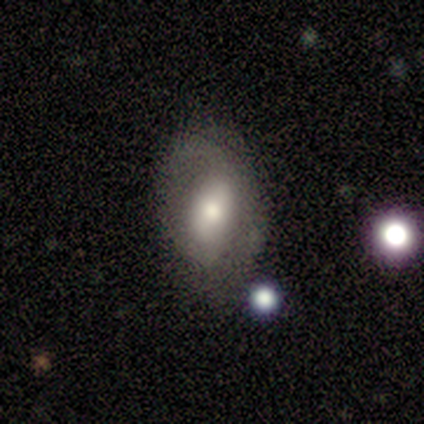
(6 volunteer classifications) Q: Smooth or featured?
A: smooth (67%); runner-up: featured or disk (33%)
Q: How rounded?
A: in between (100%)
Q: Merging?
A: none (67%); runner-up: minor disturbance (33%)